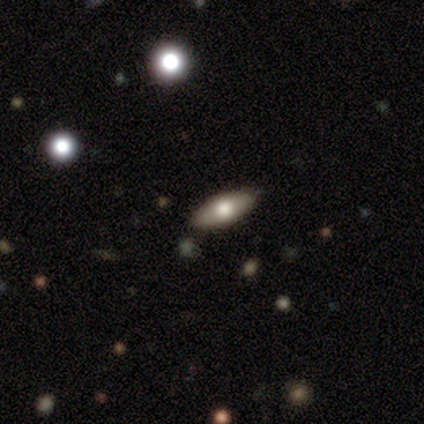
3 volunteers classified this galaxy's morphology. smooth-or-featured: smooth: 100% | featured or disk: 0% | star or artifact: 0%
  how-rounded: in between: 67% | cigar-shaped: 33% | round: 0%
  merging: none: 67% | minor disturbance: 33% | major disturbance: 0% | merger: 0%